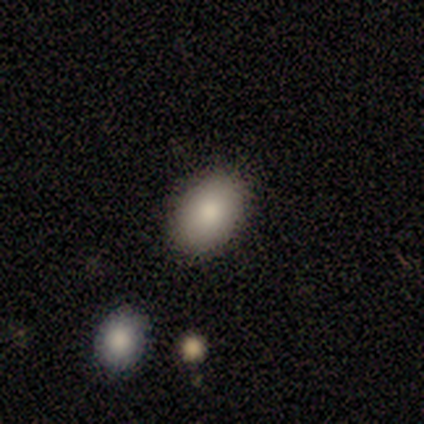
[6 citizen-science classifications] Smooth or featured: smooth — 67% (featured or disk — 33%)
How rounded: in between — 75% (round — 25%)
Merging: none — 100%